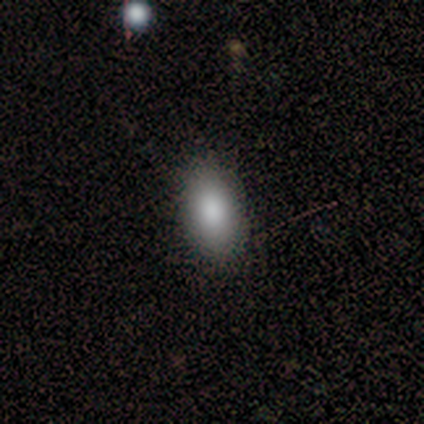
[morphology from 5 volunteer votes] Smooth or featured? 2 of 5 (40%, tied with featured or disk) said smooth. How rounded? 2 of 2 (100%) said in between. Merging? 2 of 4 (50%) said none.